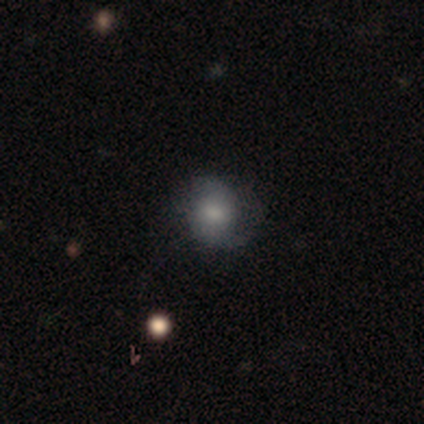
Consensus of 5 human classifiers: A featured or disk galaxy (60%) with no bar (100%), 2 (100%) medium (50%, tied with loose) spiral arms (67%) and a large central bulge (33%, tied with small and none).

Vote fractions:
- Smooth or featured? featured or disk: 60% / smooth: 40% / star or artifact: 0%
- Edge-on disk? no: 100% / yes: 0%
- Bar? no: 100% / strong: 0% / weak: 0%
- Spiral arms? yes: 67% / no: 33%
- Spiral winding? medium: 50% (tied) / loose: 50% (tied) / tight: 0%
- Spiral arm count? 2: 100% / 1: 0% / 3: 0% / 4: 0% / more than 4: 0% / can't tell: 0%
- Bulge size? large: 33% (tied) / small: 33% (tied) / none: 33% (tied) / dominant: 0% / moderate: 0%
- Merging? none: 80% / minor disturbance: 20% / major disturbance: 0% / merger: 0%